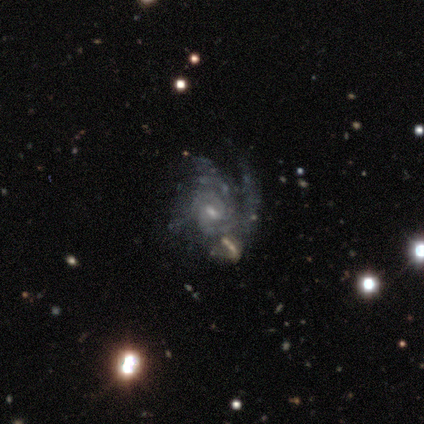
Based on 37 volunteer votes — This appears to be a featured or disk galaxy (86%) with a weak bar (58%), tight (50%) spiral arms (97%) and a small central bulge (68%). Merging: none (35%).